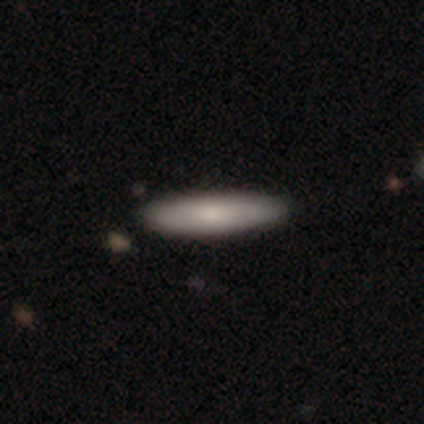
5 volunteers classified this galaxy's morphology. smooth_or_featured: smooth (p=0.80) [alt: featured or disk p=0.20]
how_rounded: in between (p=0.50) [tied with: cigar-shaped p=0.50]
merging: none (p=0.80) [alt: major disturbance p=0.20]